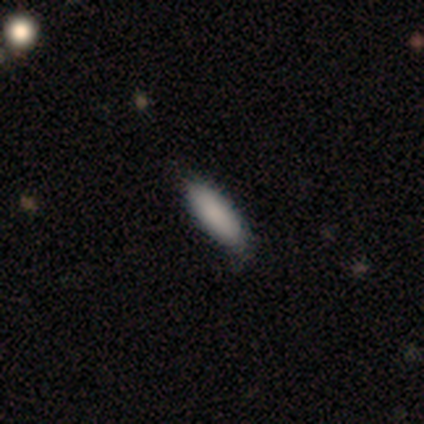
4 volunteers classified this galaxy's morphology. smooth-or-featured: smooth: 100% | featured or disk: 0% | star or artifact: 0%
  how-rounded: in between: 75% | cigar-shaped: 25% | round: 0%
  merging: none: 100% | minor disturbance: 0% | major disturbance: 0% | merger: 0%